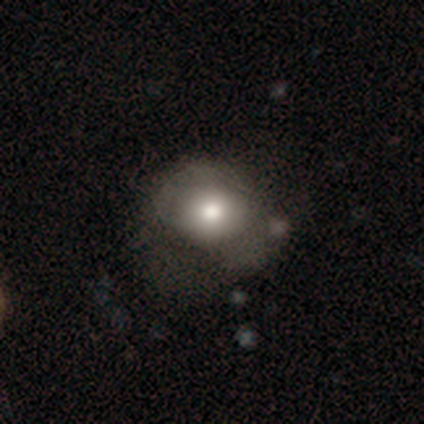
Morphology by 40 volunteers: Smooth or featured? 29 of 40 (72%) said smooth. How rounded? 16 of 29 (55%) said in between. Merging? 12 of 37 (32%) said none.